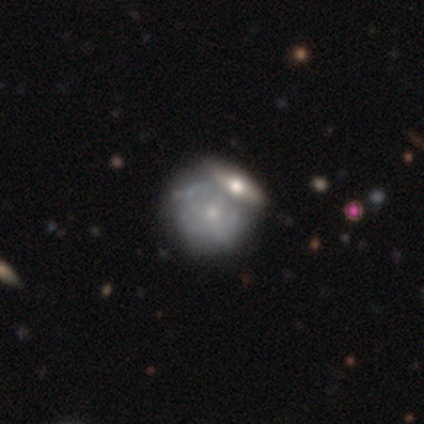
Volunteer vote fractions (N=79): A featured or disk galaxy (62%) with no bar (96%), no spiral arms (59%) and a small central bulge (78%). Merging: merger (50%).